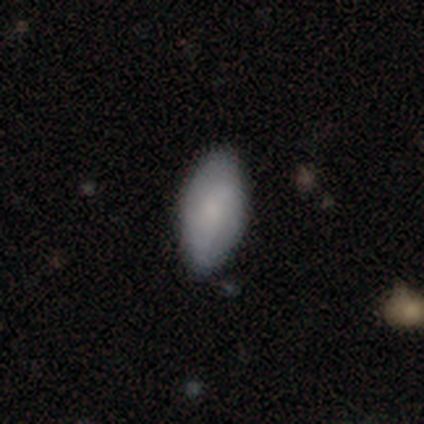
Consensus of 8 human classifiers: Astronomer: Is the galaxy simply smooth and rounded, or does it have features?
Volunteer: smooth — 88%.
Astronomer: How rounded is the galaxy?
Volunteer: in between — 86%.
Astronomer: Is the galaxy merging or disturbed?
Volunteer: none — 62%.